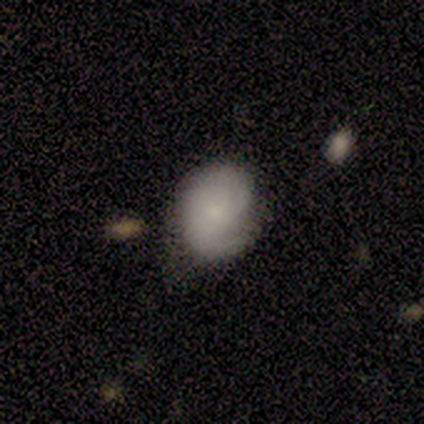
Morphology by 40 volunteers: type=smooth (55%); roundness=in between (55%); merging=minor disturbance (37%).